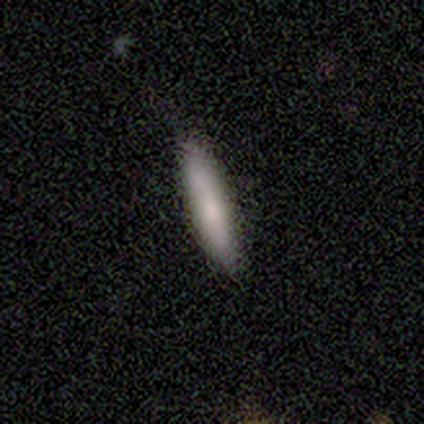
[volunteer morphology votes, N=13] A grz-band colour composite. It shows a smooth galaxy with no disk features (69%) that is cigar-shaped (78%). Merging: none (92%).